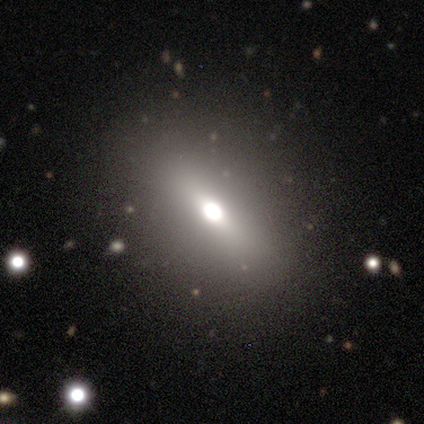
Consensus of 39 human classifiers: smooth_or_featured: smooth (p=0.51) [alt: featured or disk p=0.28]
how_rounded: in between (p=0.90) [alt: round p=0.05]
merging: none (p=0.58) [alt: merger p=0.06]